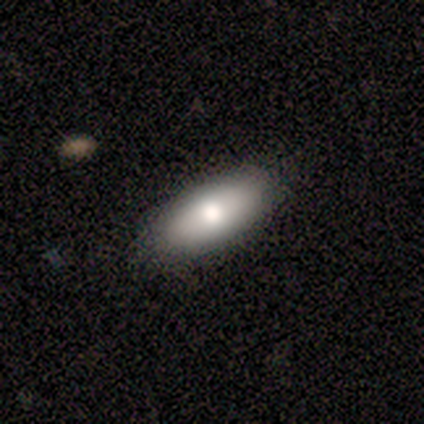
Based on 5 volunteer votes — A smooth galaxy with no disk features (80%) that is in between round and cigar-shaped (75%). Merging: none (100%).